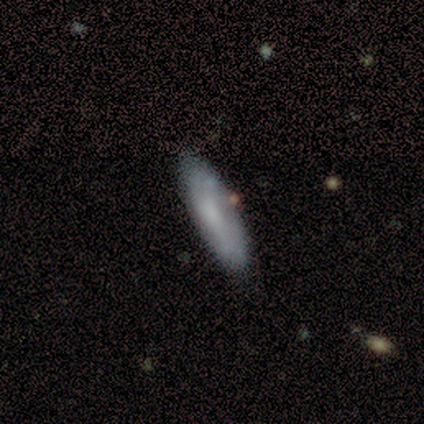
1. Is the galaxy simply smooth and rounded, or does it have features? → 75% smooth, 25% featured or disk, 0% star or artifact.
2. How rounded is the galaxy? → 67% in between, 33% cigar-shaped, 0% round.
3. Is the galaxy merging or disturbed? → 50% none (tied), 50% major disturbance (tied), 0% minor disturbance, 0% merger.